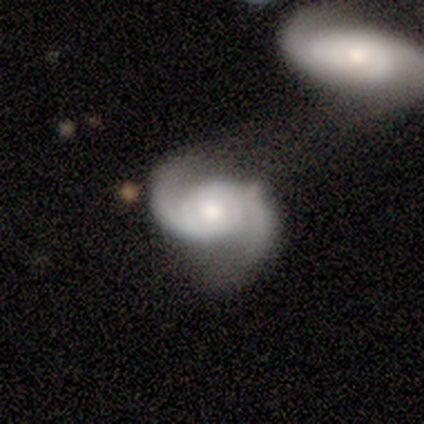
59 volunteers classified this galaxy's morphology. Q: Smooth or featured?
A: featured or disk (92%); runner-up: star or artifact (5%)
Q: Edge-on disk?
A: no (100%)
Q: Bar?
A: no (69%); runner-up: weak (31%)
Q: Spiral arms?
A: yes (98%); runner-up: no (2%)
Q: Spiral winding?
A: medium (51%); runner-up: loose (32%)
Q: Spiral arm count?
A: 2 (94%); runner-up: can't tell (6%)
Q: Bulge size?
A: moderate (67%); runner-up: small (22%)
Q: Merging?
A: merger (52%); runner-up: none (21%)